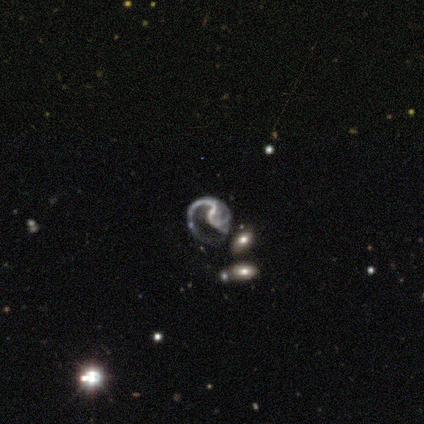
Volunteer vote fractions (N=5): A featured or disk galaxy (80%) with a weak bar (75%), 1 (50%, tied with 2) medium (75%) spiral arms (100%) and no central bulge (75%).

Vote fractions:
- Smooth or featured? featured or disk: 80% / smooth: 20% / star or artifact: 0%
- Edge-on disk? no: 100% / yes: 0%
- Bar? weak: 75% / no: 25% / strong: 0%
- Spiral arms? yes: 100% / no: 0%
- Spiral winding? medium: 75% / tight: 25% / loose: 0%
- Spiral arm count? 1: 50% (tied) / 2: 50% (tied) / 3: 0% / 4: 0% / more than 4: 0% / can't tell: 0%
- Bulge size? none: 75% / small: 25% / dominant: 0% / large: 0% / moderate: 0%
- Merging? none: 40% (tied) / major disturbance: 40% (tied) / merger: 20% / minor disturbance: 0%